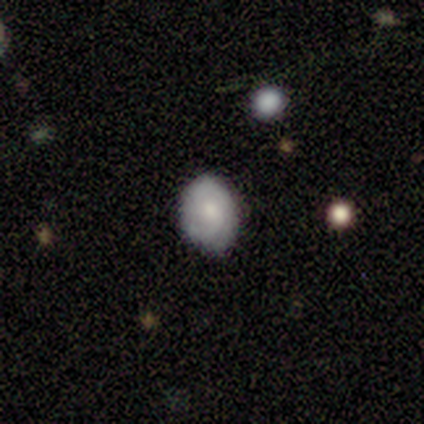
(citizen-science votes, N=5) A featured or disk galaxy (60%) with no bar (67%), tight (67%) spiral arms (100%) and a moderate central bulge (100%). Merging: none (80%).